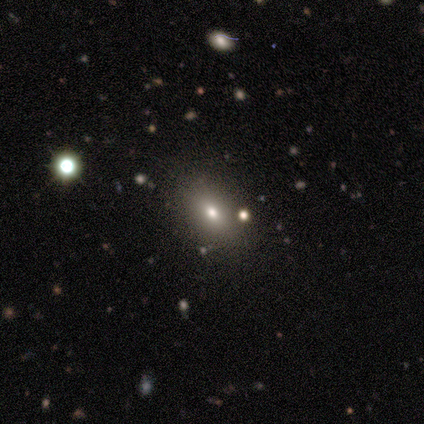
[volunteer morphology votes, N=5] Smooth or featured: smooth — 60% (star or artifact — 40%)
How rounded: in between — 100%
Merging: none — 67% (major disturbance — 33%)